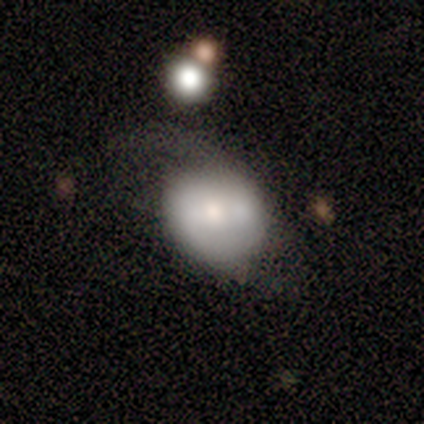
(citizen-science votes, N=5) Smooth or featured: smooth — 80% (star or artifact — 20%)
How rounded: round — 75% (in between — 25%)
Merging: none — 50% (minor disturbance — 25%)